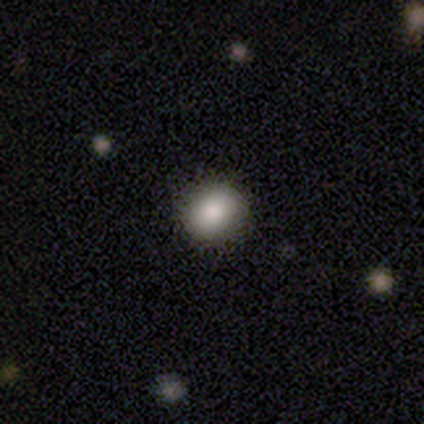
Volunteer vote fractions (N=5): Smooth or featured: star or artifact — 60% (smooth — 40%)